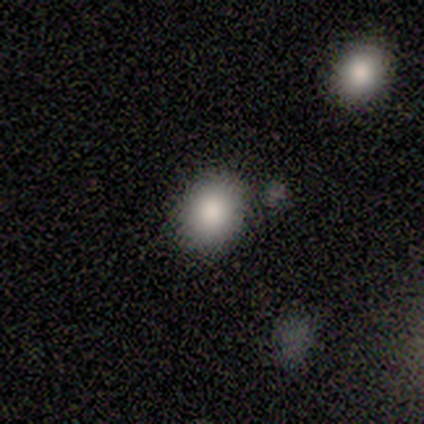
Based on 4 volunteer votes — This appears to be a smooth galaxy with no disk features (100%) that is round (50%, tied with in between). Merging: none (100%).